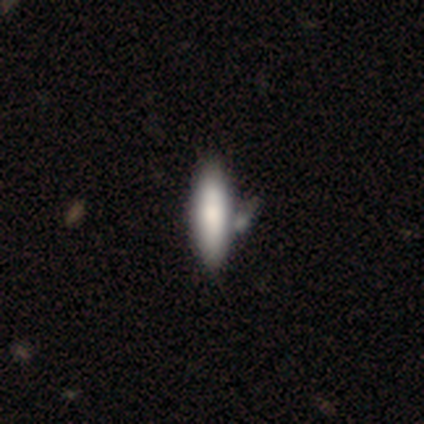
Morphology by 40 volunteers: smooth-or-featured: smooth: 70% | featured or disk: 22% | star or artifact: 8%
  how-rounded: cigar-shaped: 54% | in between: 46% | round: 0%
  merging: none: 38% | merger: 19% | minor disturbance: 16% | major disturbance: 3%